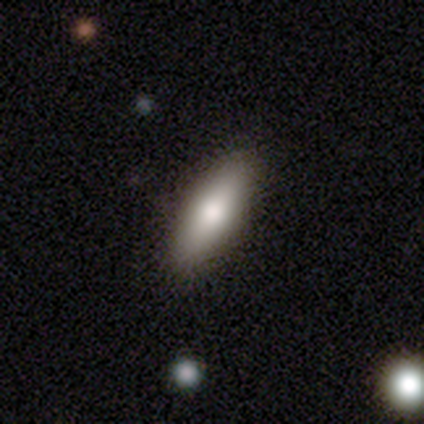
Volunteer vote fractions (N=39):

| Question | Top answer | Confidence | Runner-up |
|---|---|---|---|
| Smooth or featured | smooth | 59% | featured or disk (33%) |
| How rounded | cigar-shaped | 52% | in between (48%) |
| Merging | none | 78% | minor disturbance (19%) |